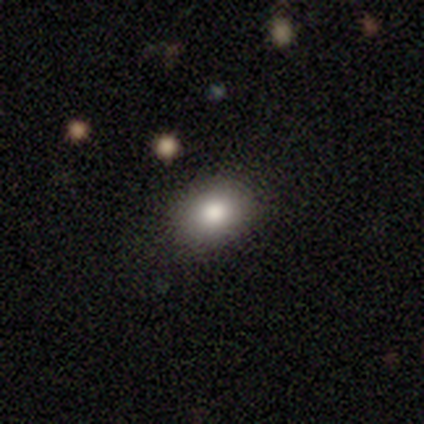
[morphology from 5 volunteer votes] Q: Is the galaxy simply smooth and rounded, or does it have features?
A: smooth — 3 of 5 (60%).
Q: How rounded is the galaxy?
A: round — 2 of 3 (67%).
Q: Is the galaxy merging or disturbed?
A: none — 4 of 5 (80%).